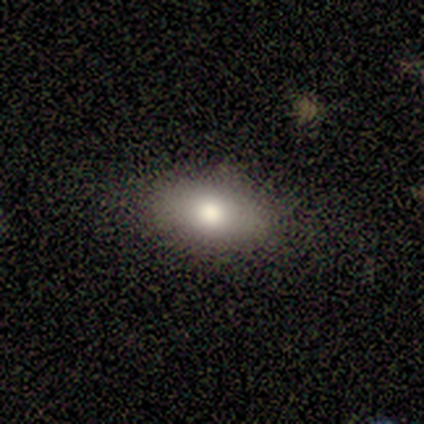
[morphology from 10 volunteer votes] Smooth or featured? 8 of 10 (80%) said smooth. How rounded? 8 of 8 (100%) said in between. Merging? 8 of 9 (89%) said none.